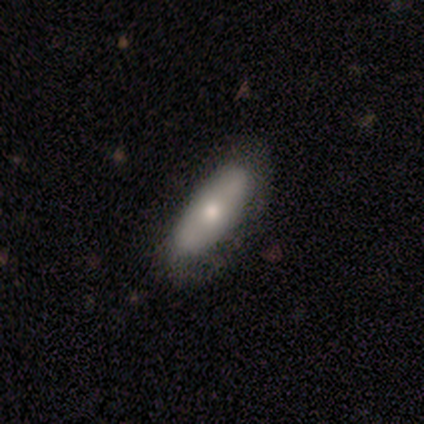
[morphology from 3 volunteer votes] A smooth galaxy with no disk features (67%) that is in between round and cigar-shaped (50%, tied with cigar-shaped).

Vote fractions:
- Smooth or featured? smooth: 67% / featured or disk: 33% / star or artifact: 0%
- How rounded? in between: 50% (tied) / cigar-shaped: 50% (tied) / round: 0%
- Merging? none: 67% / minor disturbance: 33% / major disturbance: 0% / merger: 0%